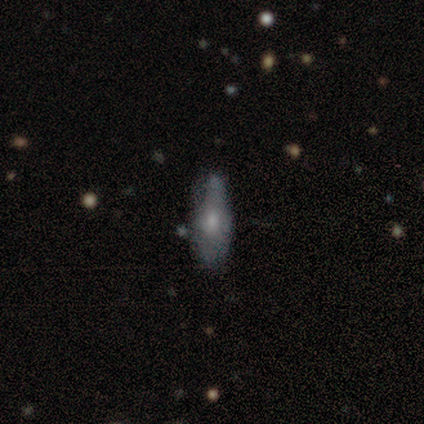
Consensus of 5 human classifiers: A featured or disk galaxy (80%) viewed edge-on (50%, tied with no) with a rounded central bulge (100%). Merging: minor disturbance (60%).